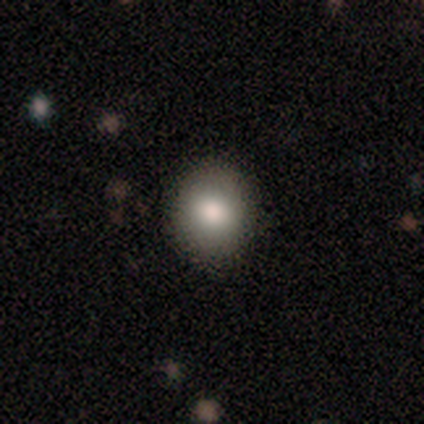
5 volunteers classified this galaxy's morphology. smooth 100%, featured or disk 0%, star or artifact 0%. Down the decision tree: how rounded — round (60%); merging — none (100%).